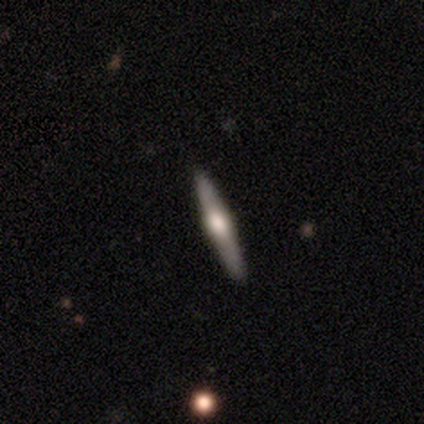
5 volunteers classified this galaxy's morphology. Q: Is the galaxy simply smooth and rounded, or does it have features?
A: featured or disk — 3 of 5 (60%).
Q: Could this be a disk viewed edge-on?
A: yes — 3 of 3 (100%).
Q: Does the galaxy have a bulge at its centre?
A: rounded — 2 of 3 (67%).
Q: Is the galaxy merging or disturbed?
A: none — 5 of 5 (100%).